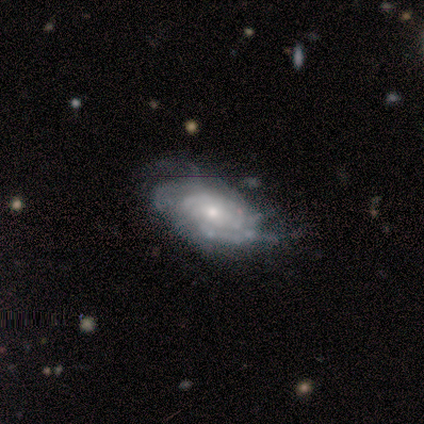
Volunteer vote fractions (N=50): A featured or disk galaxy (78%) with no bar (82%), tight (78%) spiral arms (95%) and a small central bulge (56%). Merging: none (43%).